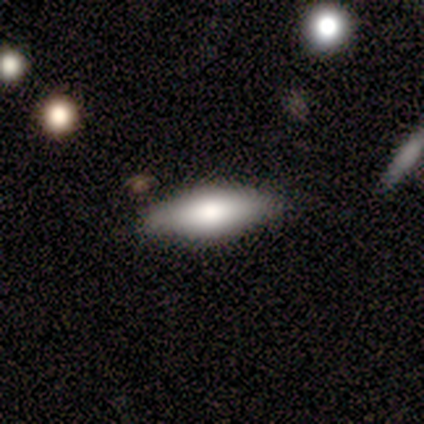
smooth-or-featured: smooth: 68% | featured or disk: 26% | star or artifact: 5%
  how-rounded: in between: 69% | cigar-shaped: 31% | round: 0%
  merging: none: 83% | minor disturbance: 11% | major disturbance: 3% | merger: 3%